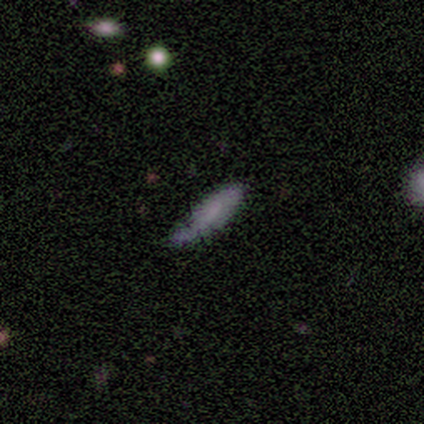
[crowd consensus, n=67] Smooth or featured? 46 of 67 (69%) said smooth. How rounded? 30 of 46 (65%) said cigar-shaped. Merging? 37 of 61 (61%) said none.